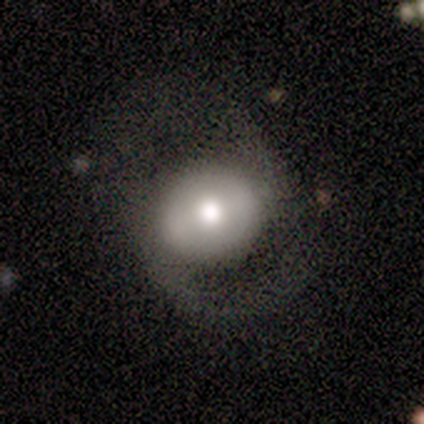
Smooth or featured: featured or disk — 67% (smooth — 33%)
Edge-on disk: no — 100%
Bar: no — 50% (strong — 25%)
Spiral arms: yes — 75% (no — 25%)
Spiral winding: loose — 67% (medium — 33%)
Spiral arm count: 2 — 100%
Bulge size: large — 50% (tied with moderate — 50%)
Merging: none — 50% (major disturbance — 33%)